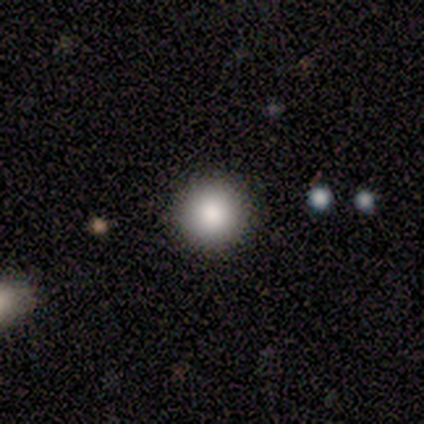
Consensus on every question: smooth or featured — smooth (100%); how rounded — round (100%); merging — none (100%).